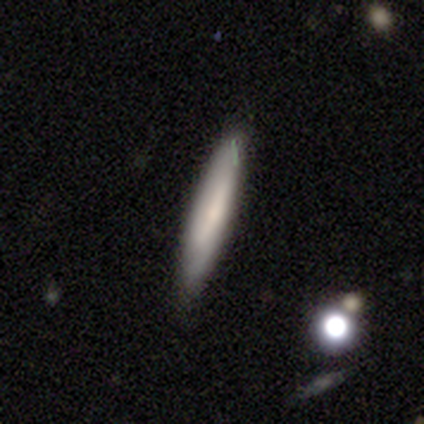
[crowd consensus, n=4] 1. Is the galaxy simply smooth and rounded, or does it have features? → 75% smooth, 25% featured or disk, 0% star or artifact.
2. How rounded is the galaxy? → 100% cigar-shaped, 0% round, 0% in between.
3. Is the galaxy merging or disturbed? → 100% none, 0% minor disturbance, 0% major disturbance, 0% merger.